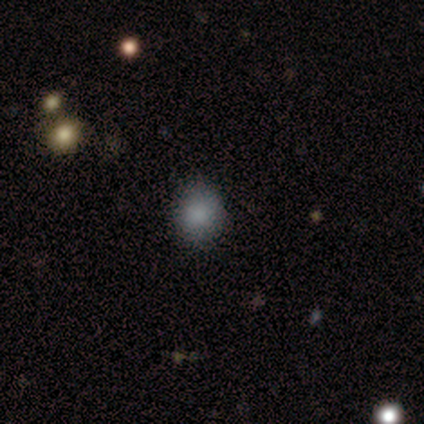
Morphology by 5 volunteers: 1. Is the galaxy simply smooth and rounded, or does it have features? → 100% smooth, 0% featured or disk, 0% star or artifact.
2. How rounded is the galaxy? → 80% round, 20% in between, 0% cigar-shaped.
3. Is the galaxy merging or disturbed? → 100% none, 0% minor disturbance, 0% major disturbance, 0% merger.